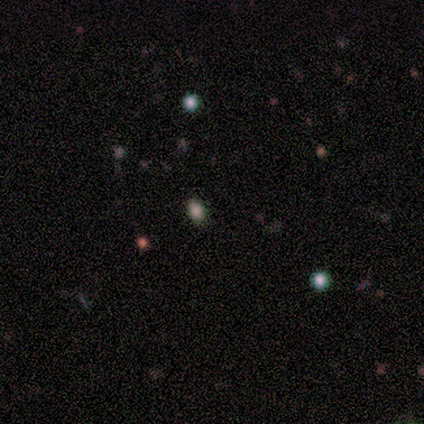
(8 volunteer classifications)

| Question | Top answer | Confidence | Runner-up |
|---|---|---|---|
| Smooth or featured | star or artifact | 75% | smooth (25%) |